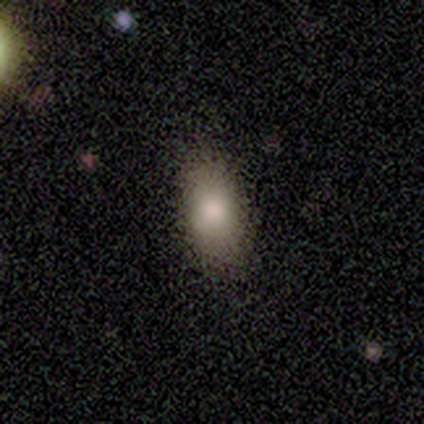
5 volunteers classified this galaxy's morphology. type=smooth (60%); roundness=in between (100%); merging=none (50%).